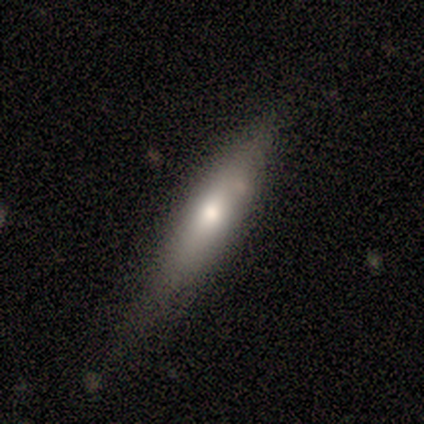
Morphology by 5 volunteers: Volunteers were most divided on "smooth or featured": smooth: 60%, featured or disk: 40%, star or artifact: 0%. More confident: how rounded — cigar-shaped (100%); merging — minor disturbance (80%).